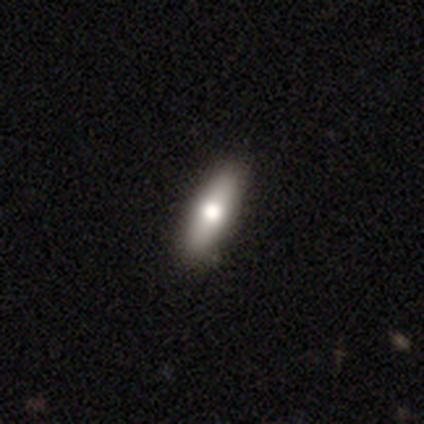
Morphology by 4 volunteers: Q: Smooth or featured?
A: smooth (50%); tied with: featured or disk (50%)
Q: How rounded?
A: in between (50%); tied with: cigar-shaped (50%)
Q: Merging?
A: none (75%); runner-up: minor disturbance (25%)